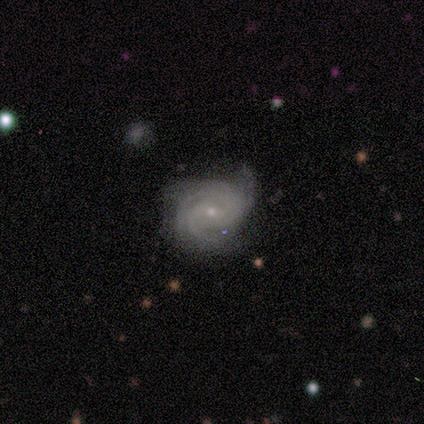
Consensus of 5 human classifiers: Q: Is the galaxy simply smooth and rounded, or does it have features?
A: featured or disk — 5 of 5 (100%).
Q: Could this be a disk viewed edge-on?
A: no — 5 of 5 (100%).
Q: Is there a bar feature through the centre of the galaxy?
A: no — 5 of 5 (100%).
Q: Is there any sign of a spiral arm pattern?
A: yes — 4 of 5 (80%).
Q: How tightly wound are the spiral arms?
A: tight — 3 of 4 (75%).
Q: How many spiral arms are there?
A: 3 — 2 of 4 (50%, tied with 4).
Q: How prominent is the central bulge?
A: small — 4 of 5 (80%).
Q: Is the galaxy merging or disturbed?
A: none — 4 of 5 (80%).